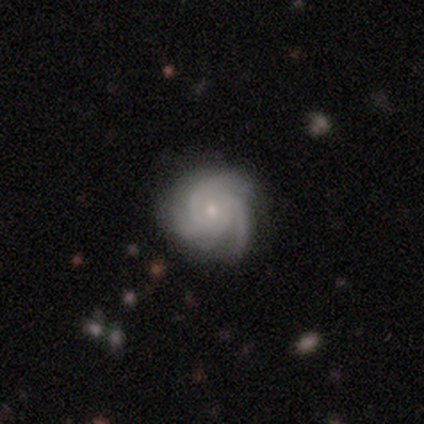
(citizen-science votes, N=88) Smooth or featured? featured or disk (93%)
Edge-on disk? no (98%)
Bar? no (74%)
Spiral arms? yes (99%)
Spiral winding? tight (76%)
Spiral arm count? 3 (68%)
Bulge size? small (68%)
Merging? none (81%)